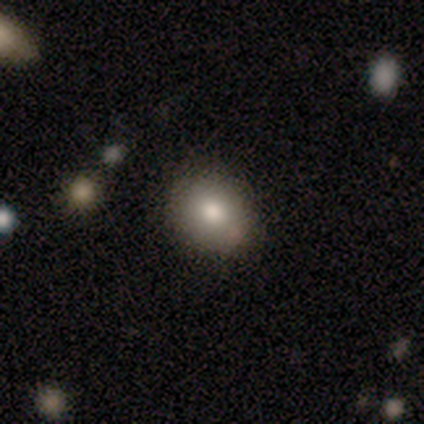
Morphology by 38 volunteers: Overall: smooth (84%). How rounded: round (59%; in between 41%). Merging: none (79%).